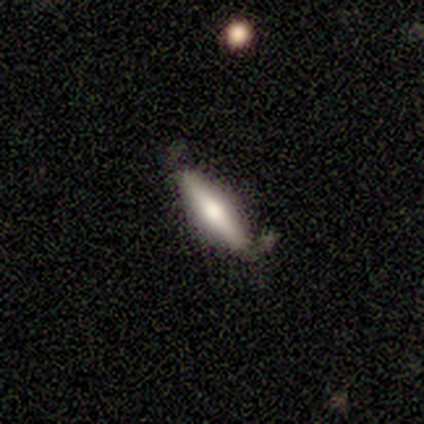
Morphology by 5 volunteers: smooth-or-featured: smooth: 60% | featured or disk: 40% | star or artifact: 0%
  how-rounded: in between: 67% | cigar-shaped: 33% | round: 0%
  merging: none: 60% | minor disturbance: 40% | major disturbance: 0% | merger: 0%